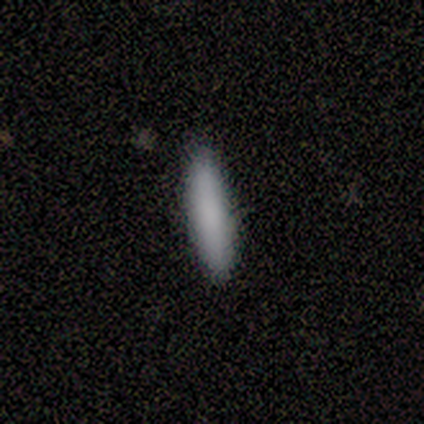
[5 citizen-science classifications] Volunteers were most divided on "merging": none: 75%, minor disturbance: 25%, major disturbance: 0%, merger: 0%. More confident: how rounded — cigar-shaped (100%); smooth or featured — smooth (80%).